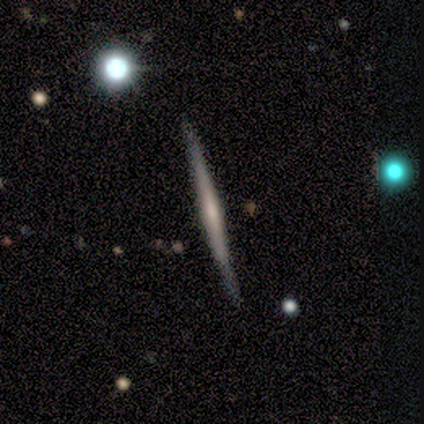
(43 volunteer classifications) smooth_or_featured: featured or disk (p=0.63) [alt: smooth p=0.28]
disk_edge_on: yes (p=0.93) [alt: no p=0.07]
edge_on_bulge: rounded (p=0.48) [alt: none p=0.40]
merging: none (p=0.90) [alt: minor disturbance p=0.08]